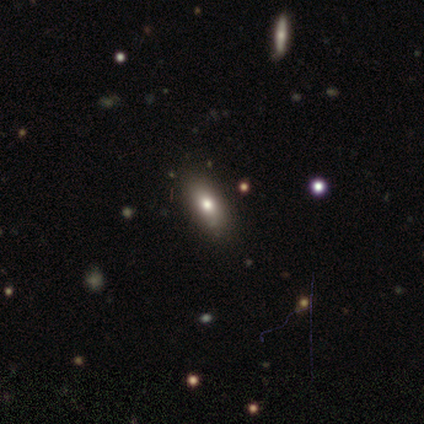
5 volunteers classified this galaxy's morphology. Smooth or featured? 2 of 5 (40%, tied with featured or disk) said smooth. How rounded? 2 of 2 (100%) said in between. Merging? 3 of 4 (75%) said none.